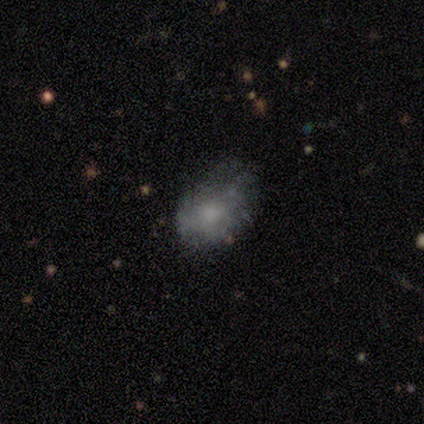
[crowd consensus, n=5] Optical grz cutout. It shows a smooth galaxy with no disk features (80%) that is in between round and cigar-shaped (100%). Merging: none (75%).